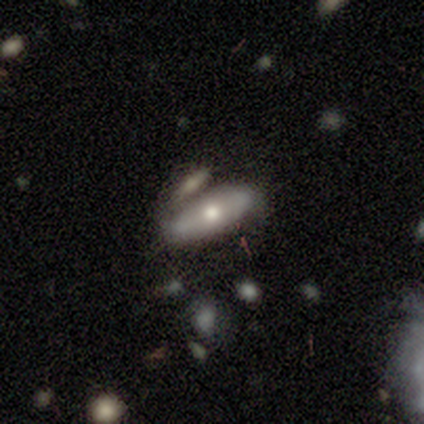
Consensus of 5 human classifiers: This appears to be a featured or disk galaxy (60%) with no bar (100%), no spiral arms (100%) and a moderate central bulge (100%). Merging: none (40%, tied with merger).